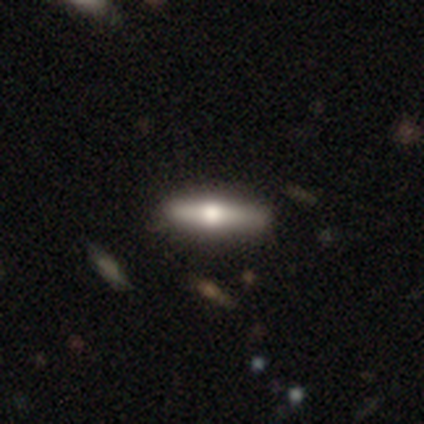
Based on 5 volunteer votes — This appears to be a featured or disk galaxy (60%) viewed edge-on (100%) with a rounded central bulge (100%). Merging: none (60%).